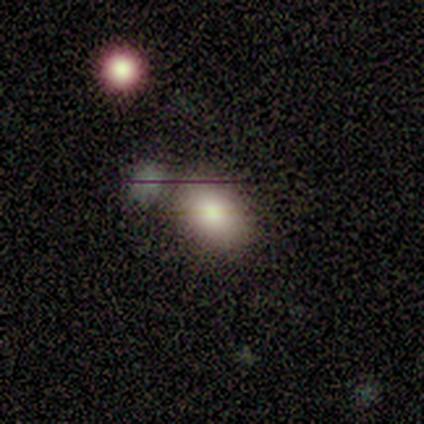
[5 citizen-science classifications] Smooth or featured? smooth (80%)
How rounded? in between (75%)
Merging? none (75%)